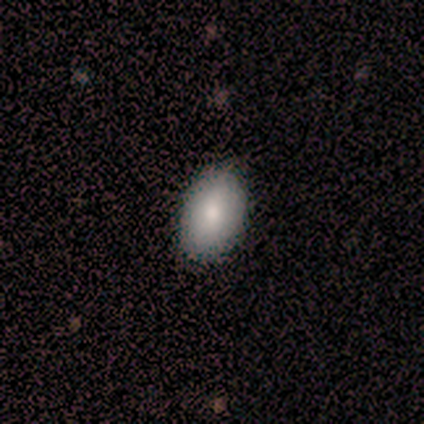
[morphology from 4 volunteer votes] Smooth or featured? 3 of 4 (75%) said smooth. How rounded? 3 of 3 (100%) said in between. Merging? 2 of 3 (67%) said none.